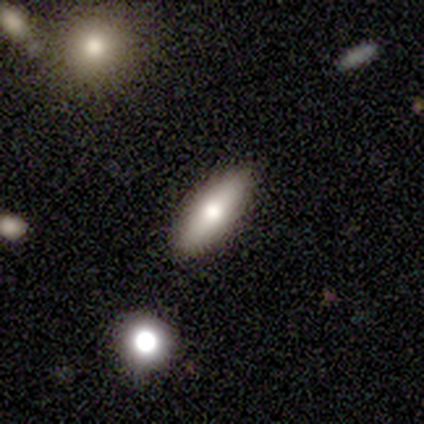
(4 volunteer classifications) Smooth or featured: smooth — 100%
How rounded: in between — 75% (cigar-shaped — 25%)
Merging: none — 100%